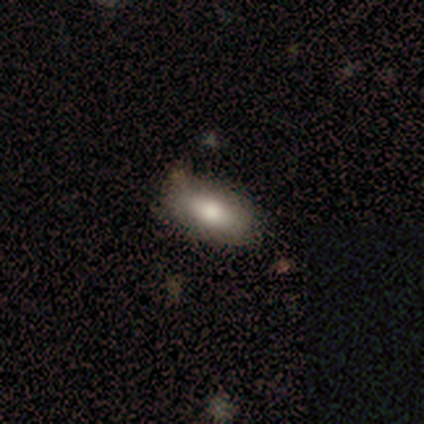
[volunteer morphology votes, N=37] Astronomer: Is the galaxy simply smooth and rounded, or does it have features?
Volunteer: smooth — 73%.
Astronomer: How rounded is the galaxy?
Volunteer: in between — 89%.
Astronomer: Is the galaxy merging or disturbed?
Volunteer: none — 79%.